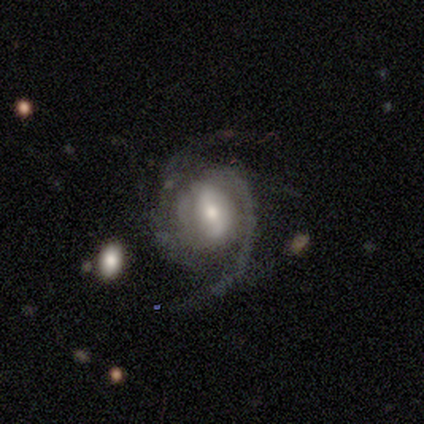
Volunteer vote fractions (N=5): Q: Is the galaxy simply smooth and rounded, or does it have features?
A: featured or disk — 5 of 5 (100%).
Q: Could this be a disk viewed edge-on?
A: no — 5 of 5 (100%).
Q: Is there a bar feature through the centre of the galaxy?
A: weak — 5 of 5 (100%).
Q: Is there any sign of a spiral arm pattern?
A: yes — 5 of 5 (100%).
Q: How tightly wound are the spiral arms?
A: medium — 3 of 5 (60%).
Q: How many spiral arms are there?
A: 2 — 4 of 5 (80%).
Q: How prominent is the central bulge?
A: moderate — 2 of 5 (40%).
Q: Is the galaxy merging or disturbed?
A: none — 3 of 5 (60%).